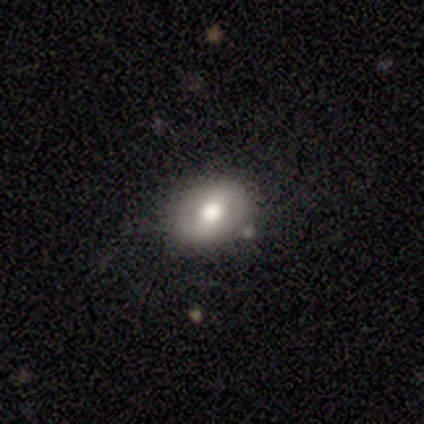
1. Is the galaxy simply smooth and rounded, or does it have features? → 60% featured or disk, 40% smooth, 0% star or artifact.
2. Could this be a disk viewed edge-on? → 100% no, 0% yes.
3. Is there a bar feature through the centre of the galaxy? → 67% weak, 33% strong, 0% no.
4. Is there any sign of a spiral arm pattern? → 67% no, 33% yes.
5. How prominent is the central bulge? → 67% large, 33% moderate, 0% dominant, 0% small, 0% none.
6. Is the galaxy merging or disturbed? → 80% none, 20% minor disturbance, 0% major disturbance, 0% merger.